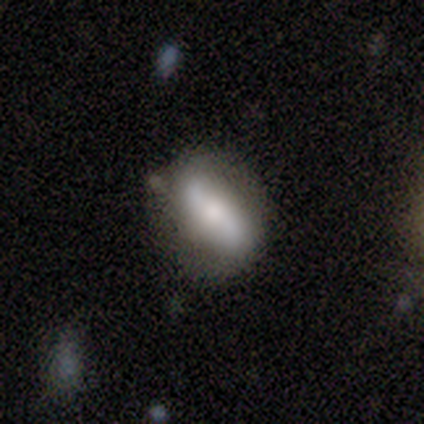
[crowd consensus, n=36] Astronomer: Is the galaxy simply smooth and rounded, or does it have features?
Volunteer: featured or disk — 58% (runner-up: smooth, 36%).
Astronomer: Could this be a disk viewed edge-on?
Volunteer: no — 86%.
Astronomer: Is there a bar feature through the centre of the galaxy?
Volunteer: strong — 50% (runner-up: weak, 39%).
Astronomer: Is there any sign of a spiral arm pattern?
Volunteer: yes — 83%.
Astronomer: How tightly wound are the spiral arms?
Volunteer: loose — 73%.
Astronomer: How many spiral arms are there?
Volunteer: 2 — 100%.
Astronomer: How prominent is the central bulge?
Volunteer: small — 44% (runner-up: large, 33%).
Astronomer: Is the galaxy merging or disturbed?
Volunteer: none — 68%.